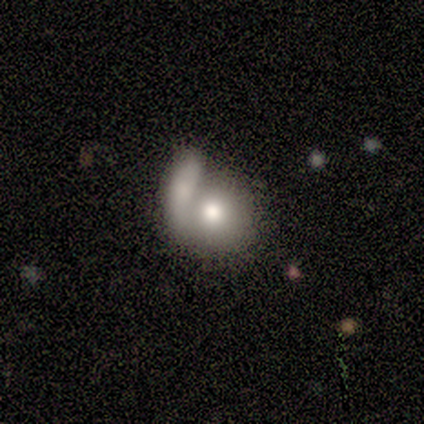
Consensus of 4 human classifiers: Morphology: type=smooth (75%); roundness=round (100%); merging=merger (67%).